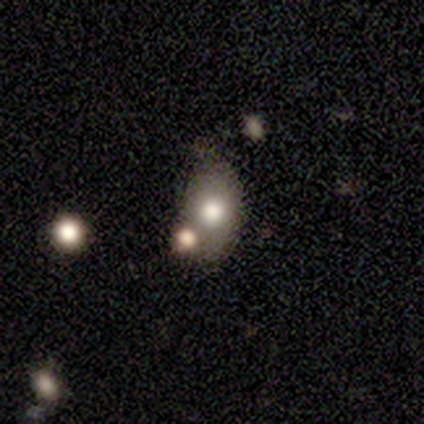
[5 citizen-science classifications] smooth-or-featured: smooth: 40% (tied) | featured or disk: 40% (tied) | star or artifact: 20%
  how-rounded: in between: 100% | round: 0% | cigar-shaped: 0%
  merging: none: 75% | merger: 25% | minor disturbance: 0% | major disturbance: 0%